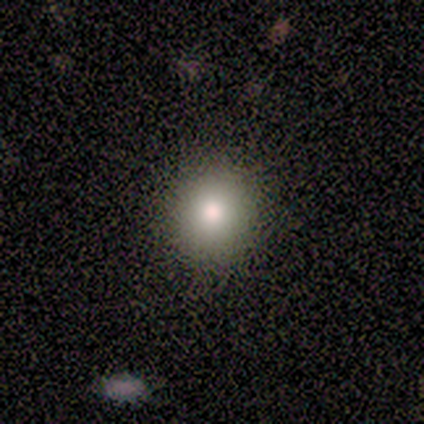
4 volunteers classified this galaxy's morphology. Volunteers were most divided on "smooth or featured": star or artifact: 50%, smooth: 25%, featured or disk: 25%.